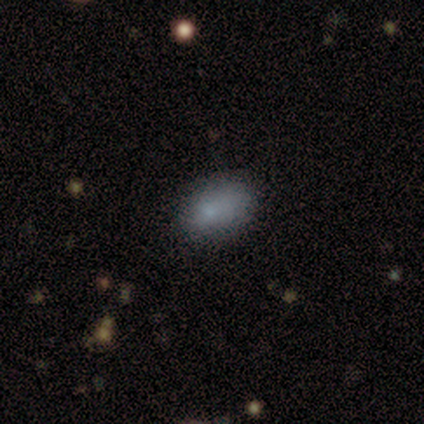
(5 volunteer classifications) Q: Smooth or featured?
A: smooth (100%)
Q: How rounded?
A: in between (100%)
Q: Merging?
A: minor disturbance (100%)